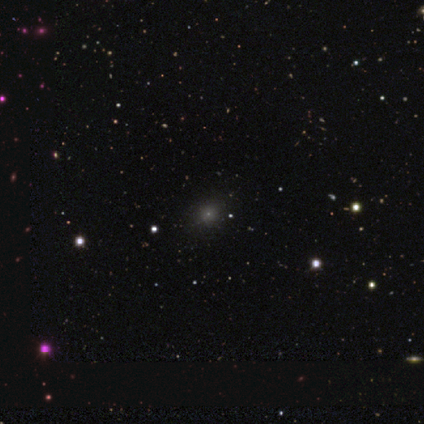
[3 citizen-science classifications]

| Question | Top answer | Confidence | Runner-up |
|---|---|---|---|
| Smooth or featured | smooth | 67% | star or artifact (33%) |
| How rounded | round | 100% | — |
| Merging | none | 50% | tied: major disturbance (50%) |